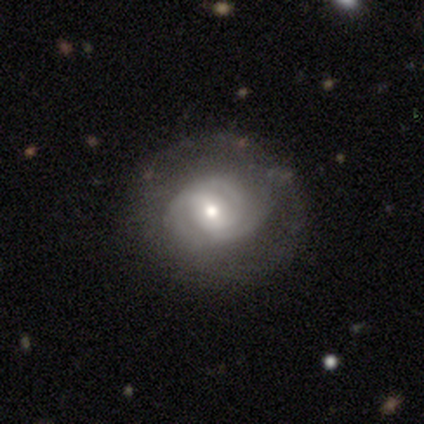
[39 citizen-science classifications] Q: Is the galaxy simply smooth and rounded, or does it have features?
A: featured or disk — 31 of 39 (79%).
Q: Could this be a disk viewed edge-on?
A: no — 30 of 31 (97%).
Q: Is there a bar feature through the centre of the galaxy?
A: weak — 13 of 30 (43%).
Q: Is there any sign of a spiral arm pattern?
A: yes — 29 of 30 (97%).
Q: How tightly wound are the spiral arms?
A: tight — 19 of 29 (66%).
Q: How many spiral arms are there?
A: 2 — 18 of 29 (62%).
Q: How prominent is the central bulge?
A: moderate — 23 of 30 (77%).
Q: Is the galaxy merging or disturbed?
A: none — 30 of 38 (79%).